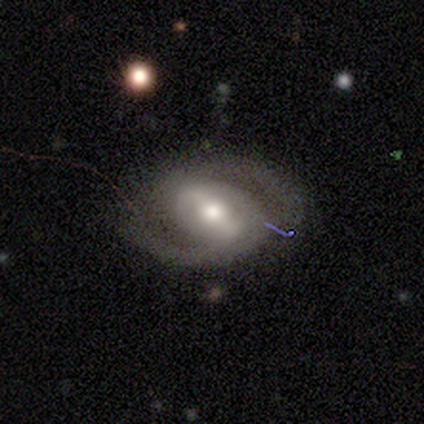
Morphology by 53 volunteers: Smooth or featured? 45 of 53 (85%) said featured or disk. Edge-on disk? 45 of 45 (100%) said no. Bar? 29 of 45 (64%) said strong. Spiral arms? 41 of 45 (91%) said yes. Spiral winding? 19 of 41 (46%) said medium. Spiral arm count? 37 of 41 (90%) said 2. Bulge size? 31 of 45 (69%) said moderate. Merging? 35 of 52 (67%) said none.